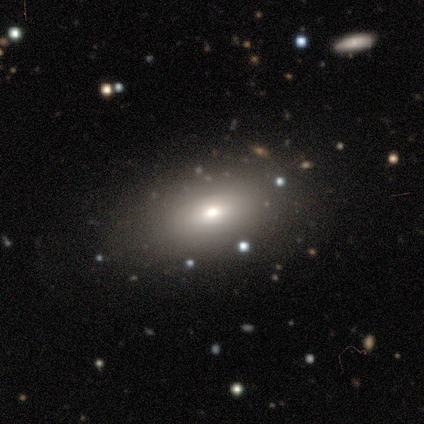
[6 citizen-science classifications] Q: Smooth or featured?
A: smooth (67%); runner-up: featured or disk (17%)
Q: How rounded?
A: in between (75%); runner-up: round (25%)
Q: Merging?
A: none (80%); runner-up: minor disturbance (20%)